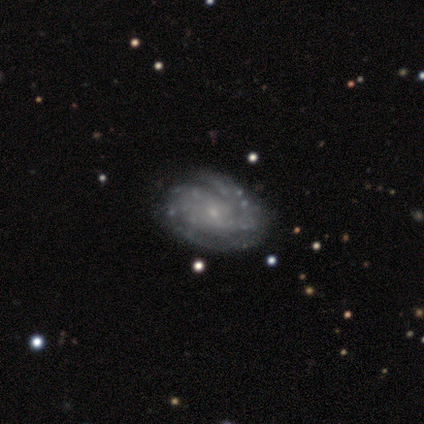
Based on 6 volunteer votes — Smooth or featured?
  - featured or disk: 100% *
  - smooth: 0%
  - star or artifact: 0%
Edge-on disk?
  - no: 100% *
  - yes: 0%
Bar?
  - no: 83% *
  - weak: 17%
  - strong: 0%
Spiral arms?
  - yes: 100% *
  - no: 0%
Spiral winding?
  - tight: 100% *
  - medium: 0%
  - loose: 0%
Spiral arm count?
  - 3: 33% * (tied)
  - can't tell: 33% * (tied)
  - 1: 17%
  - 4: 17%
  - 2: 0%
  - more than 4: 0%
Bulge size?
  - small: 100% *
  - dominant: 0%
  - large: 0%
  - moderate: 0%
  - none: 0%
Merging?
  - none: 83% *
  - minor disturbance: 17%
  - major disturbance: 0%
  - merger: 0%